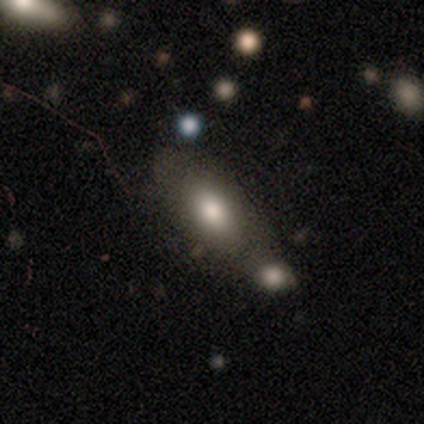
A smooth galaxy with no disk features (78%) that is in between round and cigar-shaped (92%).

Vote fractions:
- Smooth or featured? smooth: 78% / featured or disk: 13% / star or artifact: 9%
- How rounded? in between: 92% / cigar-shaped: 6% / round: 3%
- Merging? none: 43% / merger: 38% / minor disturbance: 10% / major disturbance: 10%